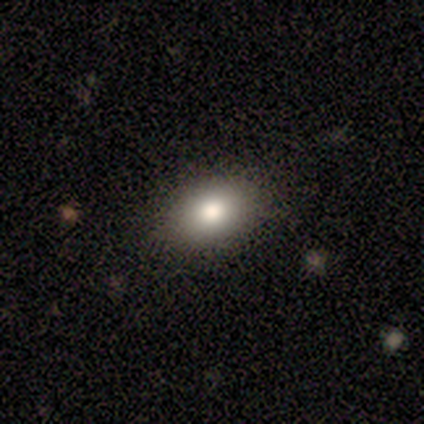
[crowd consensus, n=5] smooth_or_featured: smooth (p=0.80) [alt: featured or disk p=0.20]
how_rounded: in between (p=1.00)
merging: none (p=1.00)